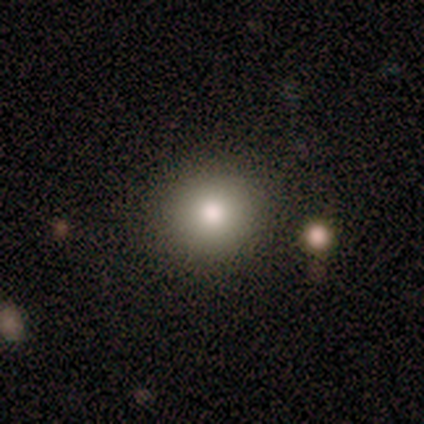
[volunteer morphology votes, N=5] Consensus on every question: smooth or featured — smooth (100%); how rounded — round (100%); merging — none (100%).